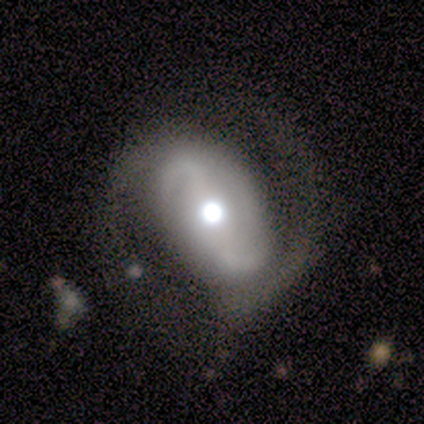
A featured or disk galaxy (83%) with a strong bar (60%), 2 (80%) medium (40%, tied with loose) spiral arms (100%) and a moderate central bulge (60%). Merging: none (80%).